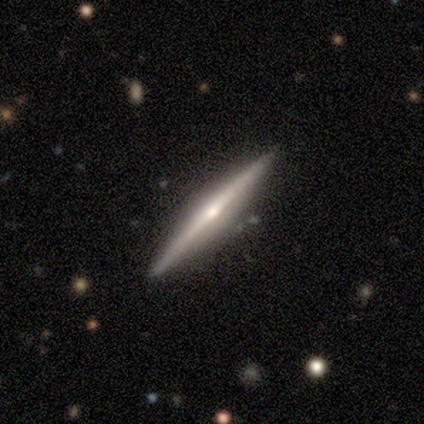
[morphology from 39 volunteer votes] smooth_or_featured: featured or disk (p=0.79) [alt: smooth p=0.18]
disk_edge_on: yes (p=1.00)
edge_on_bulge: rounded (p=0.74) [alt: none p=0.26]
merging: none (p=0.95) [alt: major disturbance p=0.03]